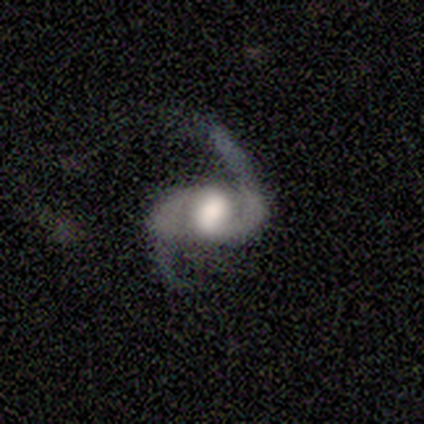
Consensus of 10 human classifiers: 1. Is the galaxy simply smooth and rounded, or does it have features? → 100% featured or disk, 0% smooth, 0% star or artifact.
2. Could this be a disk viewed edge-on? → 90% no, 10% yes.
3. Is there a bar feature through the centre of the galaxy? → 44% strong, 33% no, 22% weak.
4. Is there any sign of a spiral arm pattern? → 100% yes, 0% no.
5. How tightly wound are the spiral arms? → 56% loose, 22% tight, 22% medium.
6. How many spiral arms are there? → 100% 2, 0% 1, 0% 3, 0% 4, 0% more than 4, 0% can't tell.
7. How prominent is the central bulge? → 67% large, 11% dominant, 11% moderate, 11% none, 0% small.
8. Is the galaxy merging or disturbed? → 80% none, 20% minor disturbance, 0% major disturbance, 0% merger.